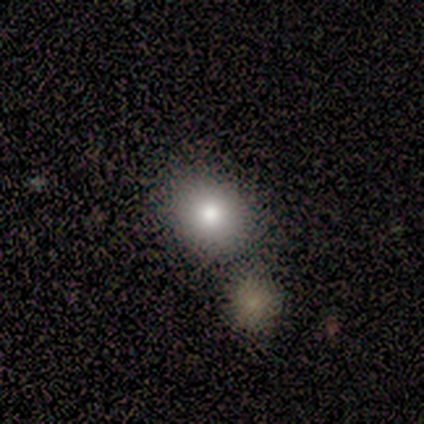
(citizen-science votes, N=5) Q: Smooth or featured?
A: smooth (60%); runner-up: star or artifact (40%)
Q: How rounded?
A: round (67%); runner-up: in between (33%)
Q: Merging?
A: none (67%); runner-up: merger (33%)